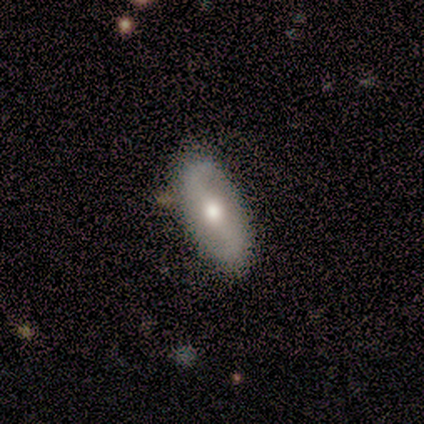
A smooth galaxy with no disk features (50%, tied with featured or disk) that is in between round and cigar-shaped (100%). Merging: none (75%).